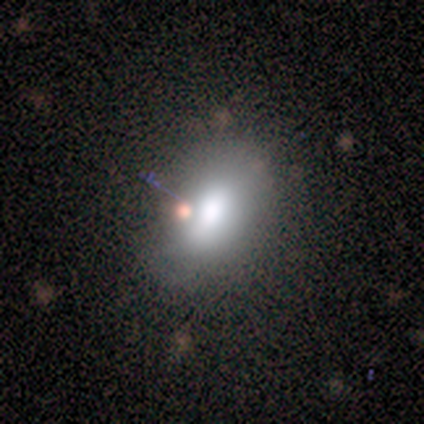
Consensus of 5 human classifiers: This appears to be a smooth galaxy with no disk features (60%) that is in between round and cigar-shaped (67%). Merging: none (75%).